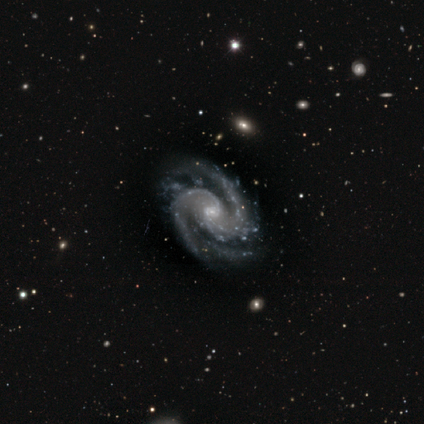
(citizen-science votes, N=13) A featured or disk galaxy (100%) with no bar (62%), 2 (92%) medium (77%) spiral arms (100%) and a moderate central bulge (54%).

Vote fractions:
- Smooth or featured? featured or disk: 100% / smooth: 0% / star or artifact: 0%
- Edge-on disk? no: 100% / yes: 0%
- Bar? no: 62% / weak: 23% / strong: 15%
- Spiral arms? yes: 100% / no: 0%
- Spiral winding? medium: 77% / tight: 15% / loose: 8%
- Spiral arm count? 2: 92% / 3: 8% / 1: 0% / 4: 0% / more than 4: 0% / can't tell: 0%
- Bulge size? moderate: 54% / small: 46% / dominant: 0% / large: 0% / none: 0%
- Merging? none: 69% / minor disturbance: 23% / merger: 8% / major disturbance: 0%